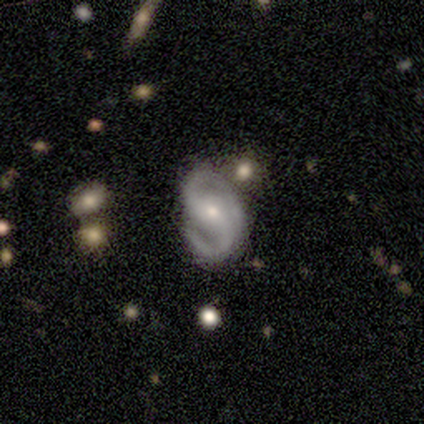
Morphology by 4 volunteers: This appears to be a featured or disk galaxy (100%) with a weak bar (50%, tied with no), 2 (100%) medium (50%) spiral arms (100%) and a small central bulge (75%). Merging: none (75%).